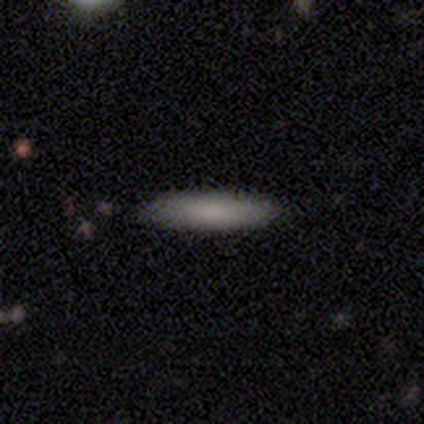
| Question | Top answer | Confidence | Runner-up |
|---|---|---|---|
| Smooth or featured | smooth | 75% | star or artifact (25%) |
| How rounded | cigar-shaped | 100% | — |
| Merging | none | 67% | minor disturbance (33%) |